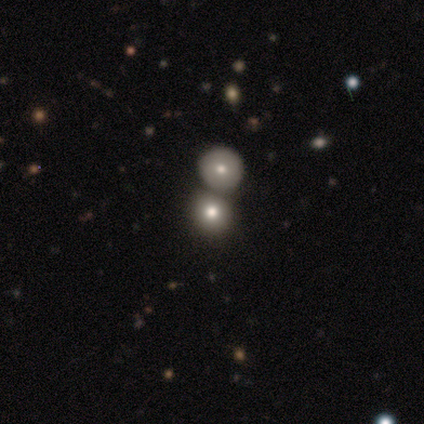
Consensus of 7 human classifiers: smooth_or_featured: smooth (p=0.57) [alt: star or artifact p=0.29]
how_rounded: round (p=1.00)
merging: none (p=0.60) [alt: merger p=0.40]